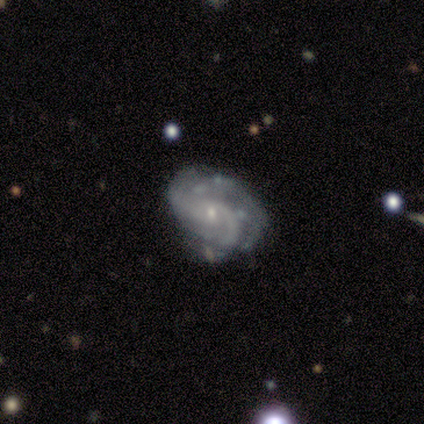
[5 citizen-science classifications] Overall: featured or disk (100%). Edge-on disk: no (100%). Bar: no (100%). Spiral arms: yes (100%). Spiral arm count: 2 (40%, tied with can't tell). Spiral winding: medium (80%). Bulge size: small (60%; moderate 40%). Merging: none (80%).